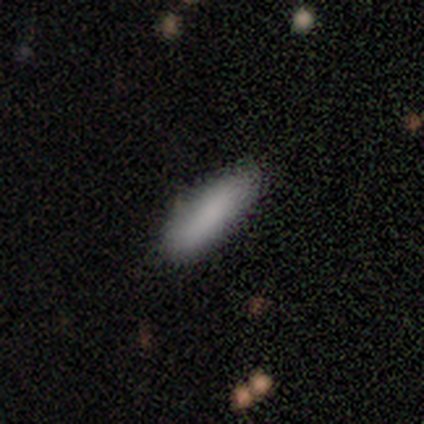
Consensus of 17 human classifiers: This is likely a smooth galaxy (71%). How rounded: possibly in between (50%, tied with cigar-shaped). Merging: likely none (73%).